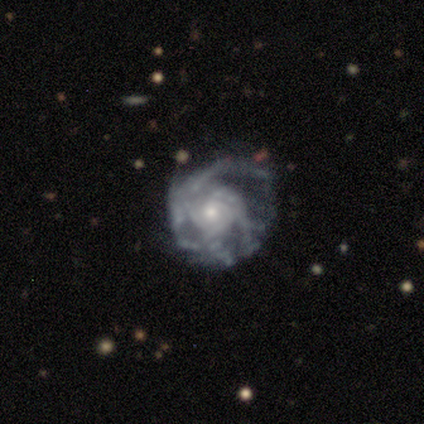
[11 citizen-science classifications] A featured or disk galaxy (91%) with no bar (70%), medium (50%) spiral arms (100%) and a small central bulge (60%).

Vote fractions:
- Smooth or featured? featured or disk: 91% / star or artifact: 9% / smooth: 0%
- Edge-on disk? no: 100% / yes: 0%
- Bar? no: 70% / weak: 20% / strong: 10%
- Spiral arms? yes: 100% / no: 0%
- Spiral winding? medium: 50% / tight: 40% / loose: 10%
- Spiral arm count? can't tell: 70% / 3: 20% / 2: 10% / 1: 0% / 4: 0% / more than 4: 0%
- Bulge size? small: 60% / moderate: 30% / large: 10% / dominant: 0% / none: 0%
- Merging? none: 70% / minor disturbance: 20% / major disturbance: 10% / merger: 0%